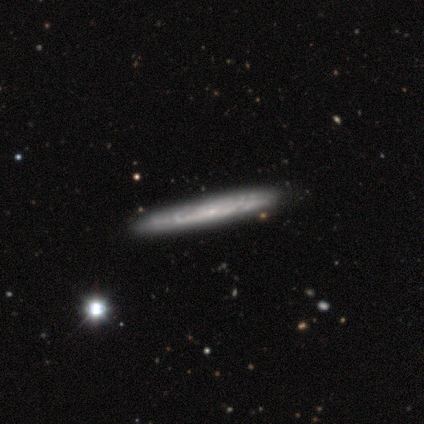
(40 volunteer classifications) featured or disk 80%, smooth 15%, star or artifact 5%. Down the decision tree: edge-on disk — yes (72%); edge-on bulge — none (74%); merging — none (74%).